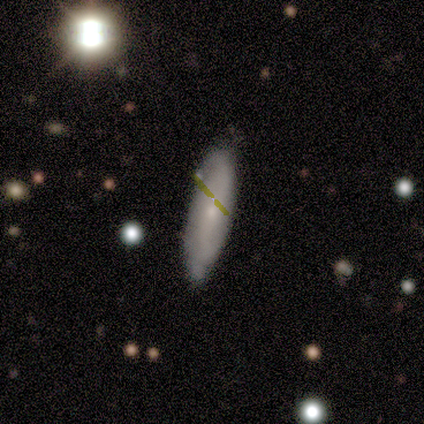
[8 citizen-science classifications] Volunteers were most divided on "how rounded": in between: 67%, cigar-shaped: 33%, round: 0%. More confident: smooth or featured — smooth (75%); merging — none (75%).